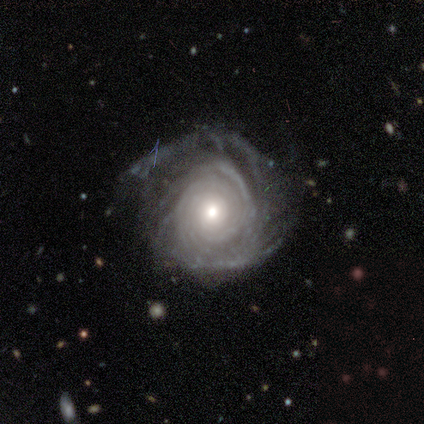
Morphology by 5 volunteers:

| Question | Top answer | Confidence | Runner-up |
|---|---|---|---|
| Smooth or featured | featured or disk | 100% | — |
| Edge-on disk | no | 100% | — |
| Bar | no | 80% | weak (20%) |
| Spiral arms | yes | 100% | — |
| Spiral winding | tight | 100% | — |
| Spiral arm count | can't tell | 40% | 2 (20%) |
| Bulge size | moderate | 40% | tied: small (40%) |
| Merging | none | 80% | minor disturbance (20%) |